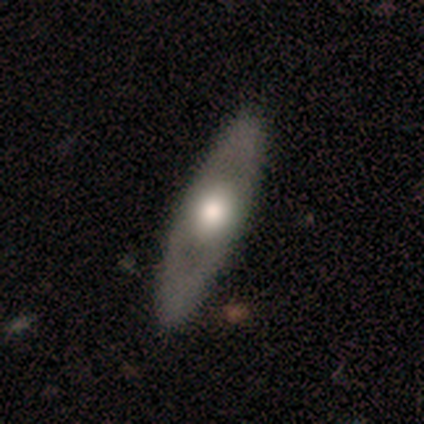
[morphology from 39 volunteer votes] A smooth galaxy with no disk features (46%, tied with featured or disk) that is in between round and cigar-shaped (61%).

Vote fractions:
- Smooth or featured? smooth: 46% (tied) / featured or disk: 46% (tied) / star or artifact: 8%
- How rounded? in between: 61% / cigar-shaped: 39% / round: 0%
- Merging? none: 92% / minor disturbance: 6% / major disturbance: 3% / merger: 0%